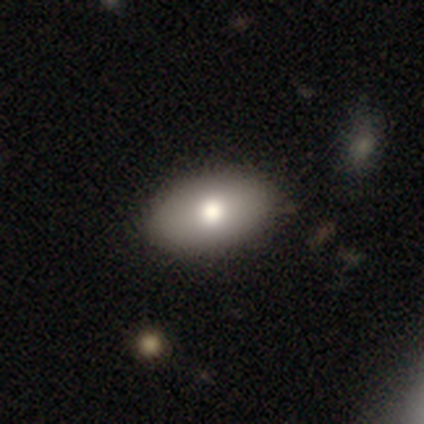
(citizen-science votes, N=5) This is clearly a smooth galaxy (80%). How rounded: clearly in between (100%). Merging: clearly none (100%).